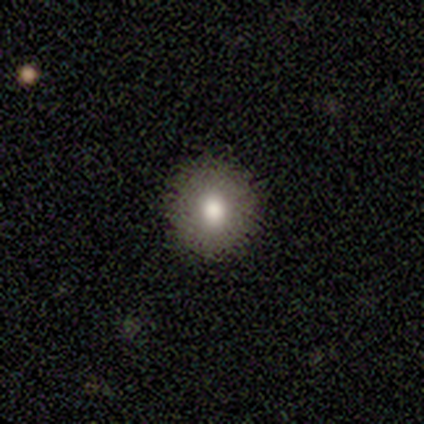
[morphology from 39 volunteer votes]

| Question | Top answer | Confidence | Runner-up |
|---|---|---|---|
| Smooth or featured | smooth | 69% | featured or disk (18%) |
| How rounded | round | 96% | in between (4%) |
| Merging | none | 94% | minor disturbance (3%) |